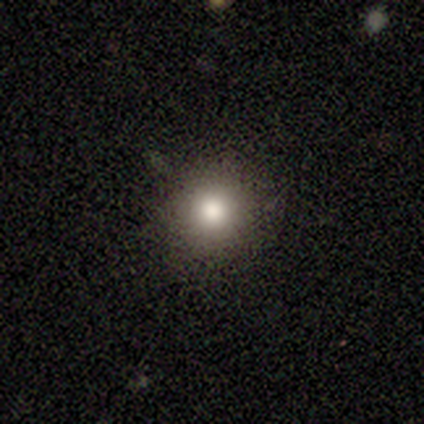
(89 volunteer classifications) Volunteers were most divided on "smooth or featured": smooth: 75%, star or artifact: 16%, featured or disk: 9%. More confident: how rounded — round (93%); merging — none (87%).